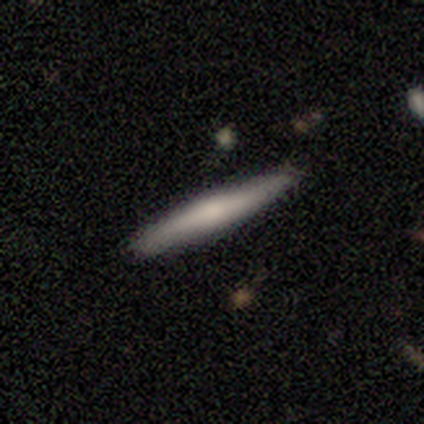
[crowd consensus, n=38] Q: Smooth or featured?
A: smooth (58%); runner-up: featured or disk (37%)
Q: How rounded?
A: cigar-shaped (100%)
Q: Merging?
A: none (86%); runner-up: minor disturbance (14%)